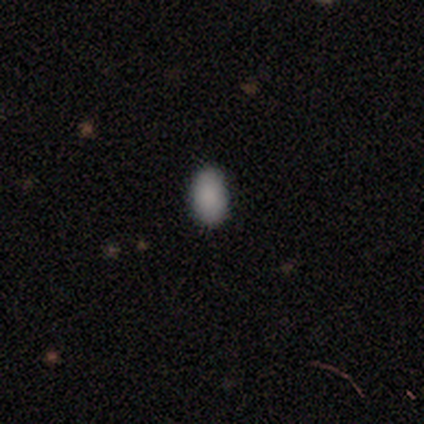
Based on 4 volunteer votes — smooth_or_featured: smooth (p=1.00)
how_rounded: in between (p=0.75) [alt: round p=0.25]
merging: none (p=1.00)